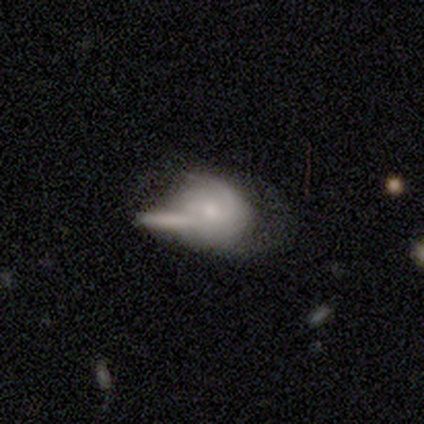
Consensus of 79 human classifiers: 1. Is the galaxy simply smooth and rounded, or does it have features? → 49% featured or disk, 44% smooth, 6% star or artifact.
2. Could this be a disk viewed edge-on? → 100% no, 0% yes.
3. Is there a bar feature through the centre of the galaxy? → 64% no, 28% weak, 8% strong.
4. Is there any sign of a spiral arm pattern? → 69% yes, 31% no.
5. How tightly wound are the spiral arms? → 44% medium, 30% tight, 26% loose.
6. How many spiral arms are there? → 70% 2, 19% can't tell, 7% 1, 4% 3, 0% 4, 0% more than 4.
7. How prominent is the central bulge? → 49% small, 44% moderate, 5% none, 3% dominant, 0% large.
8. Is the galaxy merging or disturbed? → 42% merger, 12% none, 8% minor disturbance, 7% major disturbance.